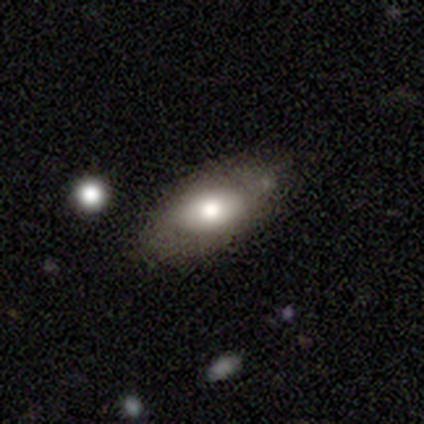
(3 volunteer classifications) Q: Smooth or featured?
A: smooth (67%); runner-up: star or artifact (33%)
Q: How rounded?
A: in between (100%)
Q: Merging?
A: none (50%); tied with: minor disturbance (50%)